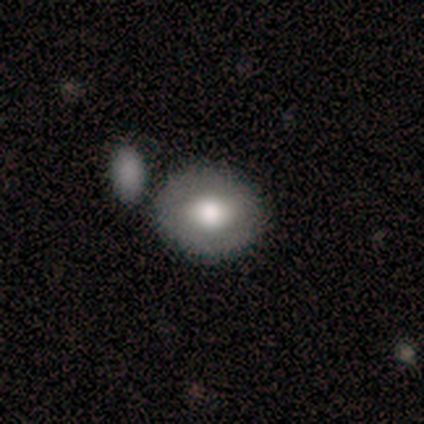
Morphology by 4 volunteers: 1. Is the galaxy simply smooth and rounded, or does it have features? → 50% smooth (tied), 50% featured or disk (tied), 0% star or artifact.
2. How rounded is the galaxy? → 50% round (tied), 50% in between (tied), 0% cigar-shaped.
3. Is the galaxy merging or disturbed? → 75% none, 25% merger, 0% minor disturbance, 0% major disturbance.